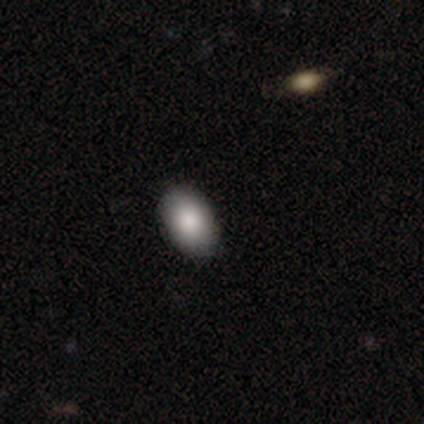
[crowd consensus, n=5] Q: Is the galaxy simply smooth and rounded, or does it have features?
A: smooth — 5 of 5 (100%).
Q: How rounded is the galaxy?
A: in between — 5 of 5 (100%).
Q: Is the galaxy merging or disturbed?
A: none — 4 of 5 (80%).